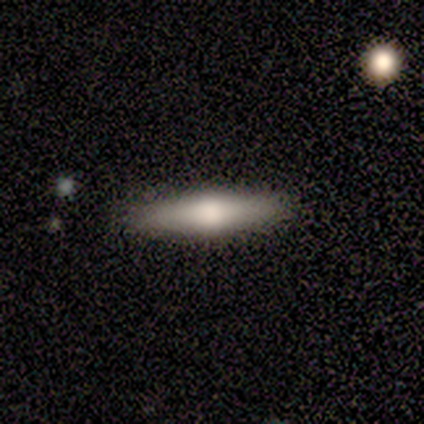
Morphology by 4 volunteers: Smooth or featured?
  - smooth: 100% *
  - featured or disk: 0%
  - star or artifact: 0%
How rounded?
  - cigar-shaped: 75% *
  - in between: 25%
  - round: 0%
Merging?
  - none: 100% *
  - minor disturbance: 0%
  - major disturbance: 0%
  - merger: 0%